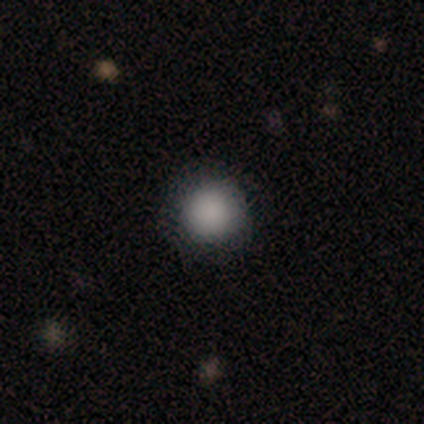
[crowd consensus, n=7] Smooth or featured?
  - smooth: 100% *
  - featured or disk: 0%
  - star or artifact: 0%
How rounded?
  - round: 100% *
  - in between: 0%
  - cigar-shaped: 0%
Merging?
  - none: 100% *
  - minor disturbance: 0%
  - major disturbance: 0%
  - merger: 0%